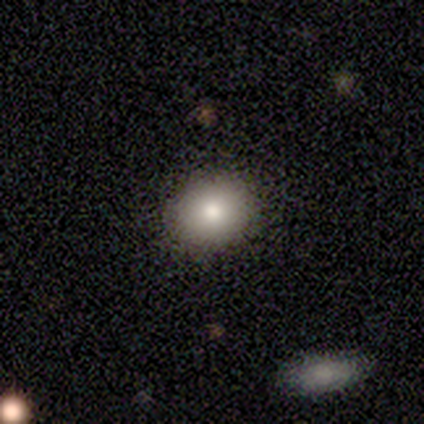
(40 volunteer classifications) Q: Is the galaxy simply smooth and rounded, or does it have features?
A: smooth — 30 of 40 (75%).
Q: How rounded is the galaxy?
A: round — 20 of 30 (67%).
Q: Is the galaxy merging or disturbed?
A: none — 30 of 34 (88%).